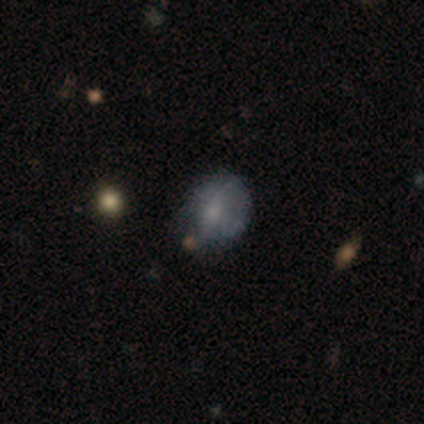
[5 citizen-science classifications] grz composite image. It shows a smooth galaxy with no disk features (40%, tied with star or artifact) that is round (50%, tied with in between). Merging: none (33%, tied with major disturbance and merger).